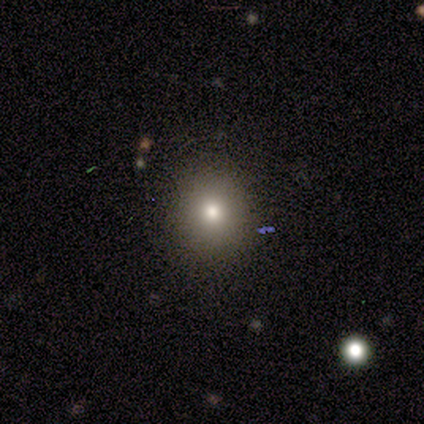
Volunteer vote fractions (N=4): Q: Smooth or featured?
A: smooth (75%); runner-up: featured or disk (25%)
Q: How rounded?
A: round (100%)
Q: Merging?
A: none (100%)